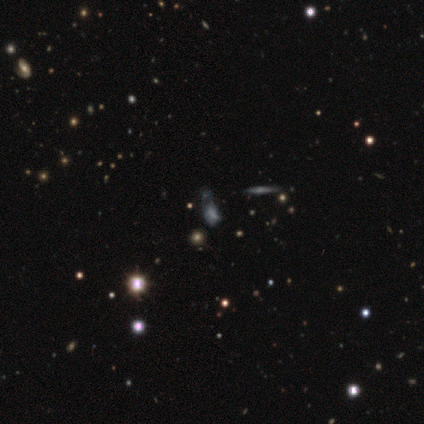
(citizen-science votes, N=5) smooth_or_featured: star or artifact (p=0.60) [alt: featured or disk p=0.40]